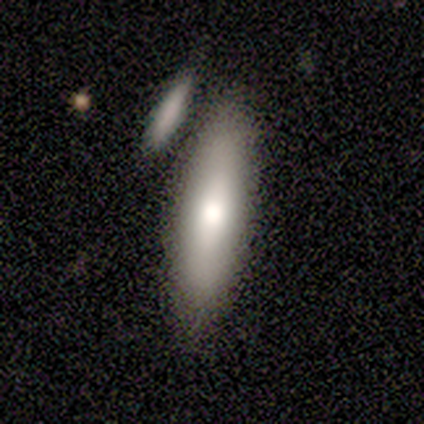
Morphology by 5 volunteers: smooth_or_featured: featured or disk (p=0.60) [alt: smooth p=0.40]
disk_edge_on: no (p=0.67) [alt: yes p=0.33]
bar: no (p=1.00)
has_spiral_arms: no (p=1.00)
bulge_size: large (p=0.50) [tied with: moderate p=0.50]
merging: none (p=0.60) [alt: minor disturbance p=0.20]